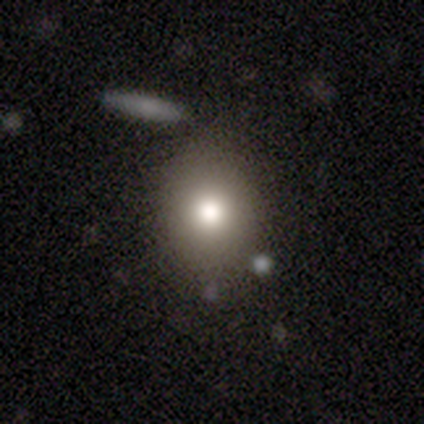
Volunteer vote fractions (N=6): Smooth or featured?
  - smooth: 100% *
  - featured or disk: 0%
  - star or artifact: 0%
How rounded?
  - round: 83% *
  - in between: 17%
  - cigar-shaped: 0%
Merging?
  - none: 83% *
  - merger: 17%
  - minor disturbance: 0%
  - major disturbance: 0%